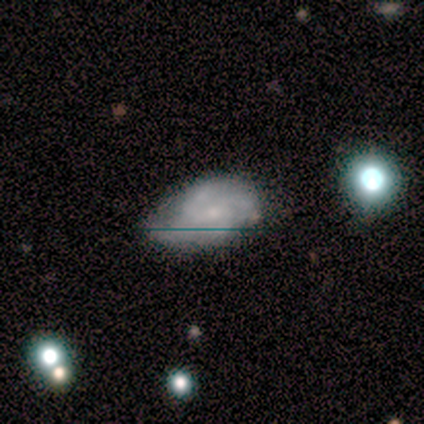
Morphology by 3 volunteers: This appears to be a featured or disk galaxy (67%) with a weak bar (50%, tied with no), 3 (50%, tied with can't tell) medium (100%) spiral arms (100%) and a moderate central bulge (50%, tied with small). Merging: minor disturbance (67%).